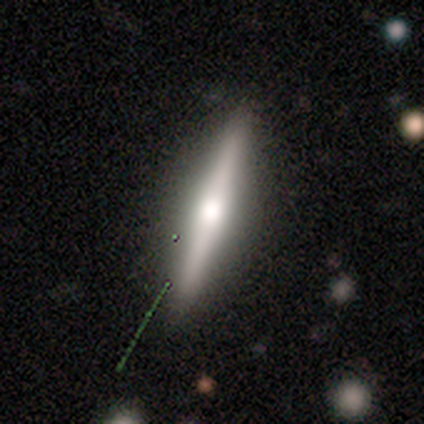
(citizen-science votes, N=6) smooth-or-featured: featured or disk: 67% | smooth: 17% | star or artifact: 17%
  disk-edge-on: yes: 100% | no: 0%
    edge-on-bulge: rounded: 100% | boxy: 0% | none: 0%
  merging: none: 80% | minor disturbance: 20% | major disturbance: 0% | merger: 0%